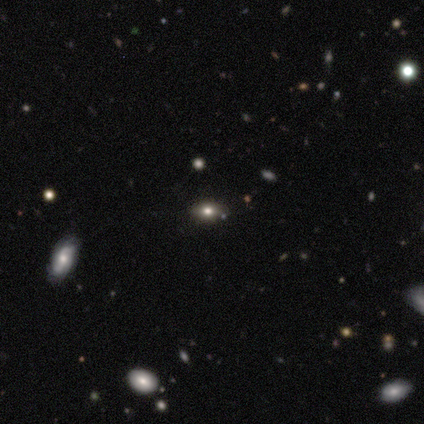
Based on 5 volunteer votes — A smooth galaxy with no disk features (80%) that is in between round and cigar-shaped (75%). Merging: none (100%).